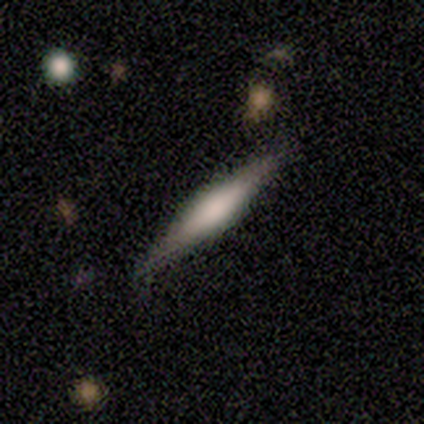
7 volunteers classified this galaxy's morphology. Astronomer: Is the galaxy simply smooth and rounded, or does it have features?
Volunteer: featured or disk — 57%.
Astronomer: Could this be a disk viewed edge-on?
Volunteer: yes — 100%.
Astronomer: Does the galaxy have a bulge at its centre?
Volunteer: rounded — 75%.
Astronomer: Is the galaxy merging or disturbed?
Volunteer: none — 83%.